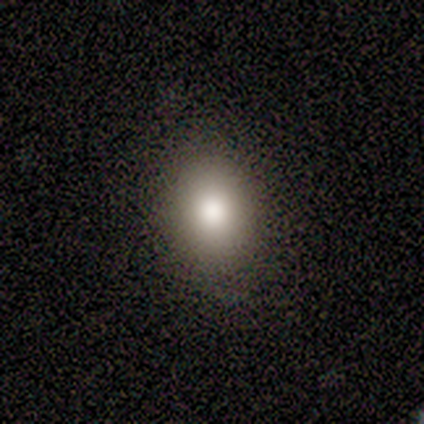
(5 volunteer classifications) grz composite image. It shows a smooth galaxy with no disk features (80%) that is round (50%, tied with in between). Merging: none (100%).